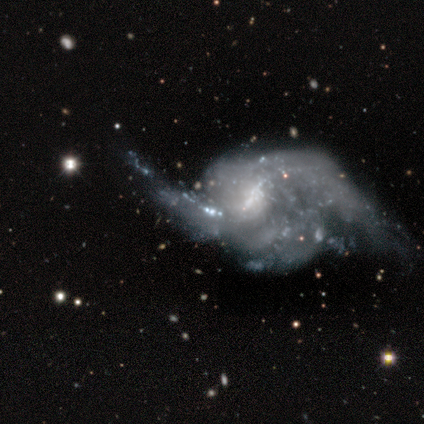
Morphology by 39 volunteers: Smooth or featured?
  - featured or disk: 82% *
  - smooth: 10%
  - star or artifact: 8%
Edge-on disk?
  - no: 100% *
  - yes: 0%
Bar?
  - weak: 38% * (tied)
  - no: 38% * (tied)
  - strong: 25%
Spiral arms?
  - yes: 84% *
  - no: 16%
Spiral winding?
  - loose: 78% *
  - tight: 11%
  - medium: 11%
Spiral arm count?
  - 2: 44% *
  - can't tell: 33%
  - 3: 19%
  - 4: 4%
  - 1: 0%
  - more than 4: 0%
Bulge size?
  - none: 38% *
  - small: 31%
  - moderate: 25%
  - large: 6%
  - dominant: 0%
Merging?
  - major disturbance: 53% *
  - none: 22%
  - minor disturbance: 14%
  - merger: 11%